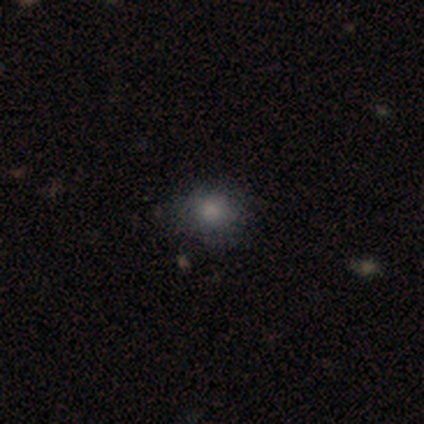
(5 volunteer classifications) A smooth galaxy with no disk features (80%) that is round (100%). Merging: none (100%).